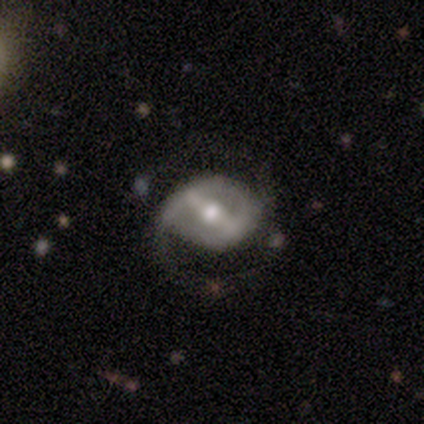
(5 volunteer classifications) A featured or disk galaxy (100%) with a weak bar (40%, tied with no), 2 (67%) loose (67%) spiral arms (60%) and a moderate central bulge (80%). Merging: none (60%).